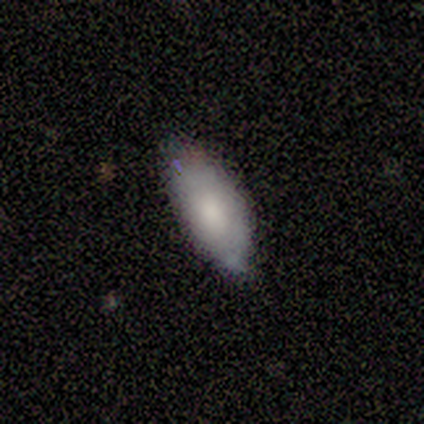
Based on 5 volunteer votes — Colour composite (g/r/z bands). It shows a smooth galaxy with no disk features (100%) that is in between round and cigar-shaped (100%). Merging: none (60%).